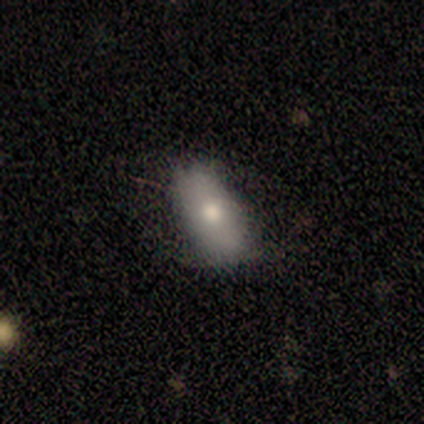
smooth_or_featured: smooth (p=0.60) [alt: featured or disk p=0.40]
how_rounded: in between (p=1.00)
merging: none (p=0.60) [alt: major disturbance p=0.40]